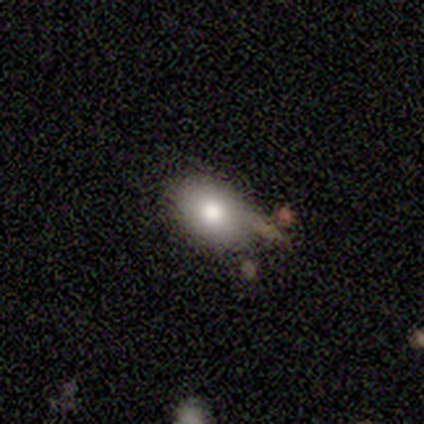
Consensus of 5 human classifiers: Q: Smooth or featured?
A: smooth (100%)
Q: How rounded?
A: in between (80%); runner-up: round (20%)
Q: Merging?
A: none (60%); runner-up: minor disturbance (20%)